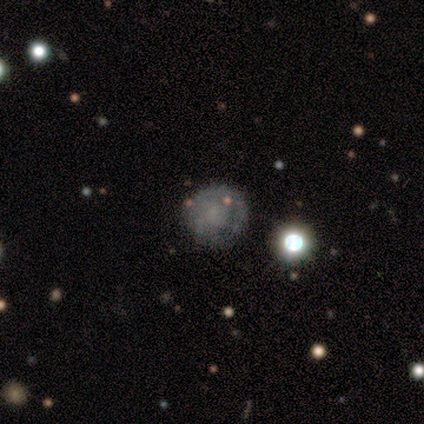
Volunteers were most divided on "smooth or featured" (2-way tie): smooth: 46%, featured or disk: 46%, star or artifact: 8%. Remaining: how rounded — round (100%); merging — none (39%).